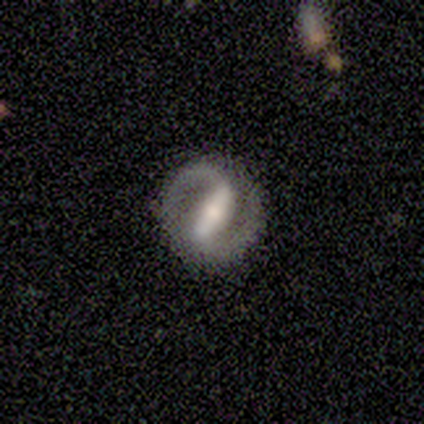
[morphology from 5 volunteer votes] Q: Smooth or featured?
A: featured or disk (100%)
Q: Edge-on disk?
A: no (100%)
Q: Bar?
A: strong (60%); runner-up: weak (40%)
Q: Spiral arms?
A: yes (100%)
Q: Spiral winding?
A: loose (60%); runner-up: medium (40%)
Q: Spiral arm count?
A: 2 (80%); runner-up: 1 (20%)
Q: Bulge size?
A: small (60%); runner-up: moderate (40%)
Q: Merging?
A: none (60%); runner-up: minor disturbance (40%)